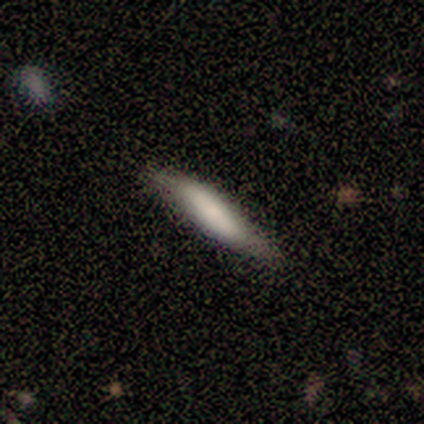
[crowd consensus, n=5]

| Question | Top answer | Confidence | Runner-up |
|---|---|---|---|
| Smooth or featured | smooth | 60% | featured or disk (40%) |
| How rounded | cigar-shaped | 100% | — |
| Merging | none | 80% | minor disturbance (20%) |